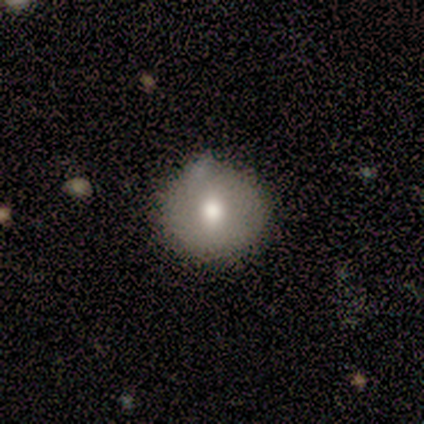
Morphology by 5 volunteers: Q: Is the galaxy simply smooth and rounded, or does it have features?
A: featured or disk — 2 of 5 (40%, tied with star or artifact).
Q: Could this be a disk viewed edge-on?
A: no — 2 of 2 (100%).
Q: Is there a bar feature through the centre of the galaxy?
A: no — 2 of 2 (100%).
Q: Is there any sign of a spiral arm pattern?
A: no — 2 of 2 (100%).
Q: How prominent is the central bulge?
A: moderate — 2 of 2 (100%).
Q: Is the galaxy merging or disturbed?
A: none — 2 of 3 (67%).